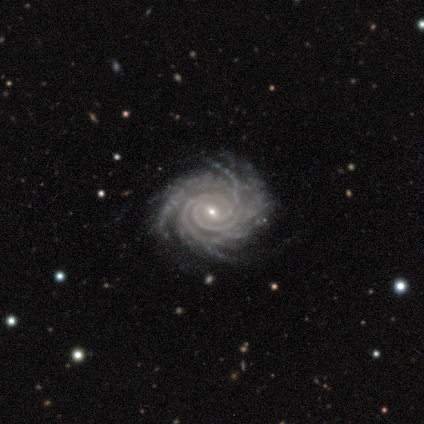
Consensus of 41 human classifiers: Smooth or featured? 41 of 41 (100%) said featured or disk. Edge-on disk? 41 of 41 (100%) said no. Bar? 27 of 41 (66%) said weak. Spiral arms? 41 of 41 (100%) said yes. Spiral winding? 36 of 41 (88%) said tight. Spiral arm count? 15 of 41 (37%) said more than 4. Bulge size? 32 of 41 (78%) said small. Merging? 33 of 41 (80%) said none.